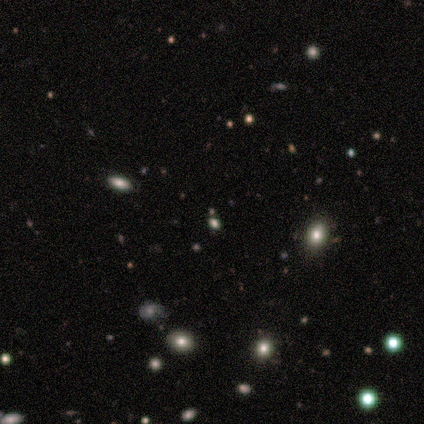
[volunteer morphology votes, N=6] Smooth or featured: smooth — 67% (star or artifact — 33%)
How rounded: round — 75% (in between — 25%)
Merging: none — 100%